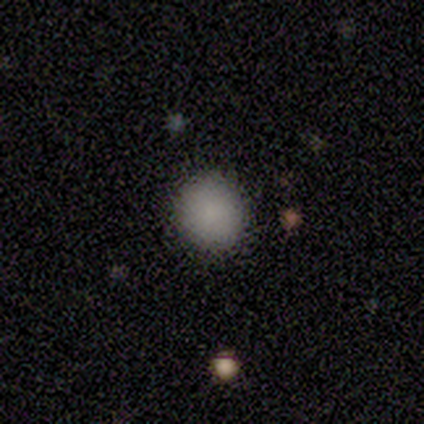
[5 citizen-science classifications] Consensus on every question: smooth or featured — smooth (100%); how rounded — round (100%); merging — none (100%).